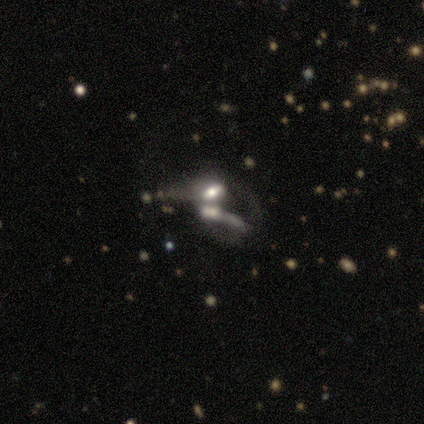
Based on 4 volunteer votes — smooth_or_featured: star or artifact (p=0.50) [alt: smooth p=0.25]